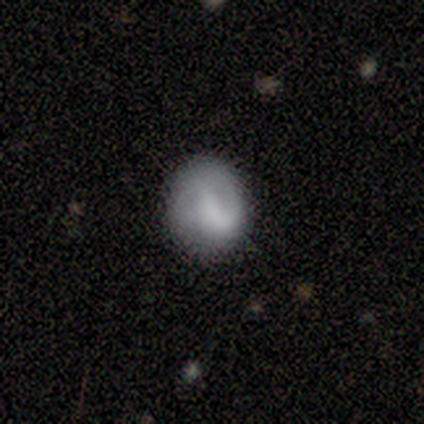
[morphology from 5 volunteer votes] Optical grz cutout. It shows a smooth galaxy with no disk features (60%) that is round (100%). Merging: minor disturbance (60%).